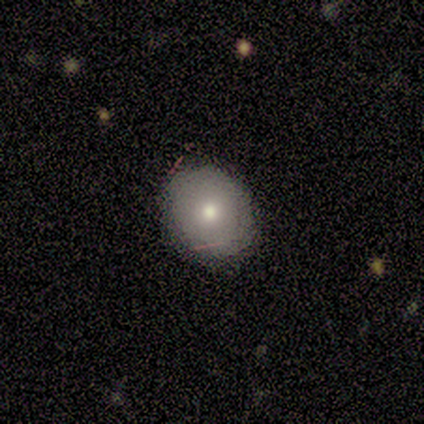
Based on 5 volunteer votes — Q: Smooth or featured?
A: smooth (40%); tied with: featured or disk (40%)
Q: How rounded?
A: round (100%)
Q: Merging?
A: none (100%)